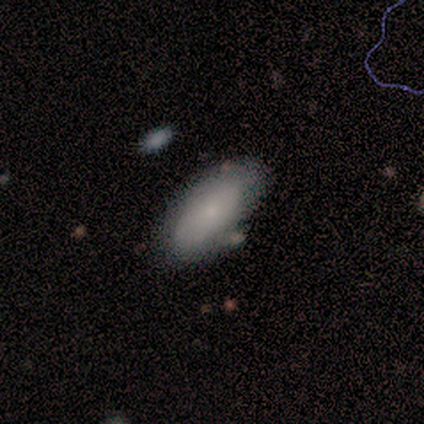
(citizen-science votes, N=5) smooth-or-featured: smooth: 80% | featured or disk: 20% | star or artifact: 0%
  how-rounded: in between: 100% | round: 0% | cigar-shaped: 0%
  merging: minor disturbance: 60% | none: 20% | major disturbance: 20% | merger: 0%